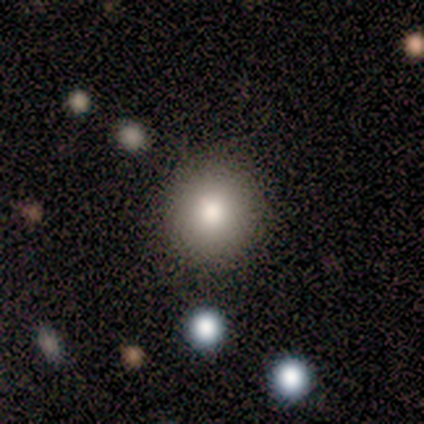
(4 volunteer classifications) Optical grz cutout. It shows a smooth galaxy with no disk features (100%) that is round (100%). Merging: none (100%).